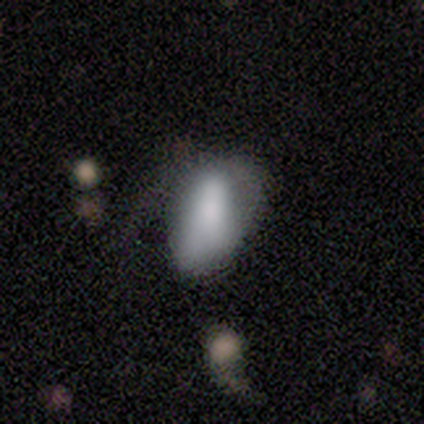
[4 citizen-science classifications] smooth 75%, featured or disk 25%, star or artifact 0%. Down the decision tree: how rounded — in between (67%); merging — major disturbance (50%, tied with merger).